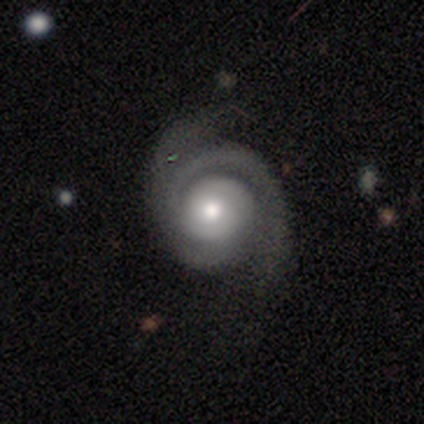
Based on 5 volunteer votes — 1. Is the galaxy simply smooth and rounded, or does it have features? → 80% featured or disk, 20% smooth, 0% star or artifact.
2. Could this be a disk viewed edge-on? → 100% no, 0% yes.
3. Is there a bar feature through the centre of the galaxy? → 100% no, 0% strong, 0% weak.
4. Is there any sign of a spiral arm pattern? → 100% yes, 0% no.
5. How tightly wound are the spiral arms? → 75% medium, 25% loose, 0% tight.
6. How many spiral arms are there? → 100% 2, 0% 1, 0% 3, 0% 4, 0% more than 4, 0% can't tell.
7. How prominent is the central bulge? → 75% moderate, 25% small, 0% dominant, 0% large, 0% none.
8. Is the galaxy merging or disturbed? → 60% none, 40% minor disturbance, 0% major disturbance, 0% merger.